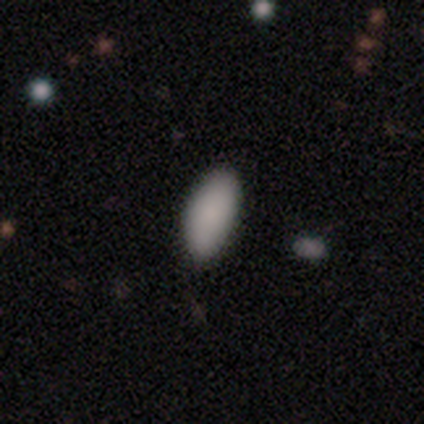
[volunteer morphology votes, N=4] Smooth or featured: smooth — 100%
How rounded: in between — 75% (round — 25%)
Merging: none — 100%